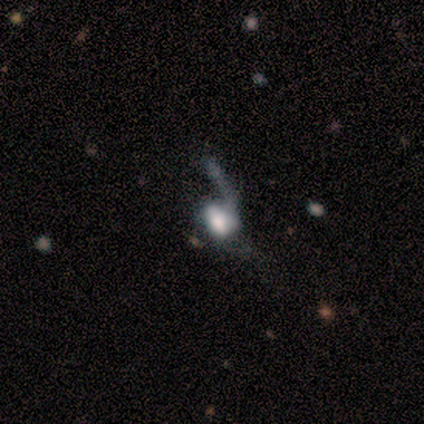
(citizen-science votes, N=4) Q: Smooth or featured?
A: smooth (50%); tied with: featured or disk (50%)
Q: How rounded?
A: round (50%); tied with: in between (50%)
Q: Merging?
A: none (50%); tied with: major disturbance (50%)